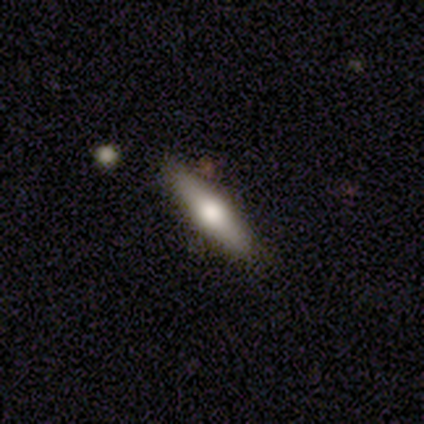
Smooth or featured? smooth (45%)
How rounded? cigar-shaped (71%)
Merging? none (88%)